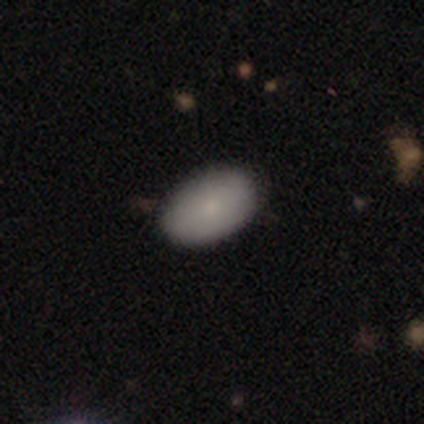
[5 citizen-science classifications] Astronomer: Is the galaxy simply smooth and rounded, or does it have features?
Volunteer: smooth — 100%.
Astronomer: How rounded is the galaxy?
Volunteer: in between — 80%.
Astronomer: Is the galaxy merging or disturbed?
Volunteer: none — 100%.